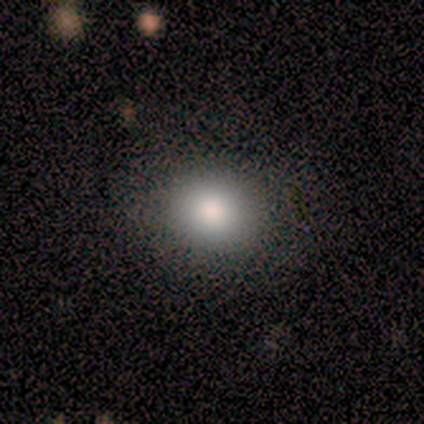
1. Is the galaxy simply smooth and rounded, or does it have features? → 60% smooth, 20% featured or disk, 20% star or artifact.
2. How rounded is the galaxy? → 67% round, 33% in between, 0% cigar-shaped.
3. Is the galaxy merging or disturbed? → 75% none, 25% minor disturbance, 0% major disturbance, 0% merger.